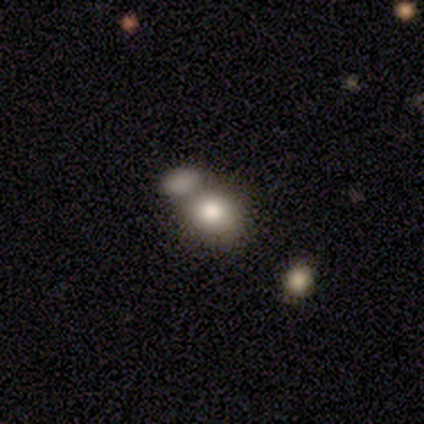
smooth-or-featured: smooth: 79% | featured or disk: 13% | star or artifact: 8%
  how-rounded: round: 67% | in between: 33% | cigar-shaped: 0%
  merging: merger: 46% | none: 34% | minor disturbance: 14% | major disturbance: 6%